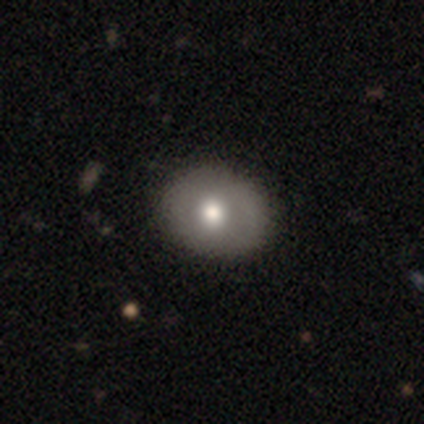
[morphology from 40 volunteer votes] smooth_or_featured: smooth (p=0.62) [alt: featured or disk p=0.35]
how_rounded: in between (p=0.56) [alt: round p=0.44]
merging: none (p=0.69) [alt: minor disturbance p=0.08]